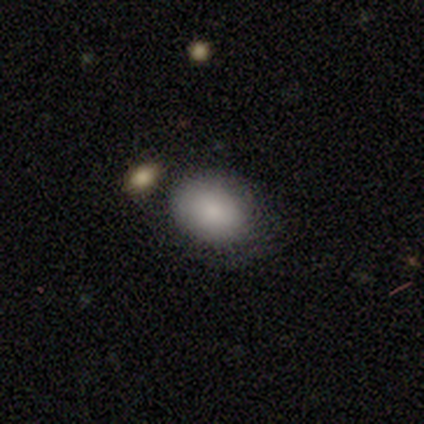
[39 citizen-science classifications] Smooth or featured: smooth — 74% (star or artifact — 18%)
How rounded: in between — 72% (round — 28%)
Merging: none — 78% (major disturbance — 9%)